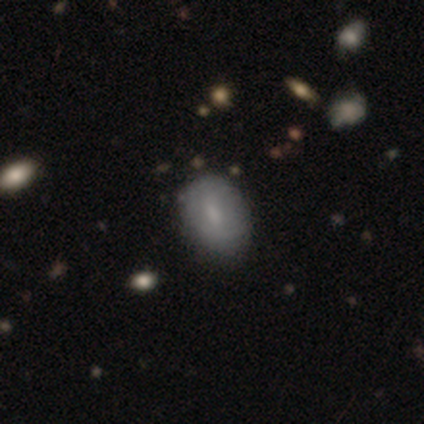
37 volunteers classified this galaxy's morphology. This appears to be a smooth galaxy with no disk features (65%) that is in between round and cigar-shaped (62%). Merging: none (71%).